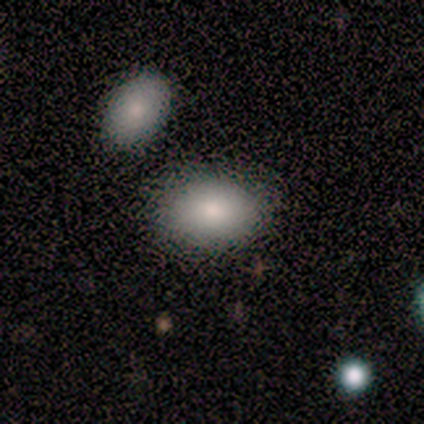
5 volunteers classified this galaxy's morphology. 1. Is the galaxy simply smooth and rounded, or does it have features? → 100% smooth, 0% featured or disk, 0% star or artifact.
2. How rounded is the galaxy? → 100% in between, 0% round, 0% cigar-shaped.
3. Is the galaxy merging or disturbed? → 80% none, 20% minor disturbance, 0% major disturbance, 0% merger.